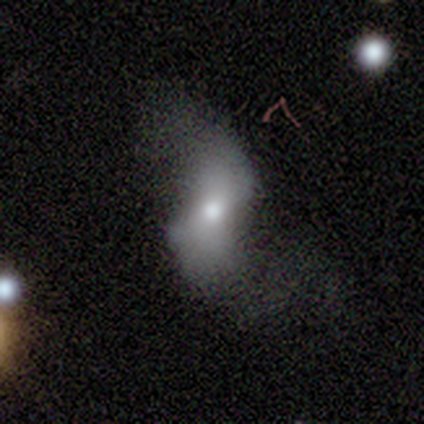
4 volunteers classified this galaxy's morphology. featured or disk 75%, smooth 25%, star or artifact 0%. Down the decision tree: edge-on disk — no (100%); bar — weak (67%); spiral arms — yes (100%); spiral arm count — 2 (67%); spiral winding — loose (100%); bulge size — moderate (100%); merging — none (50%).